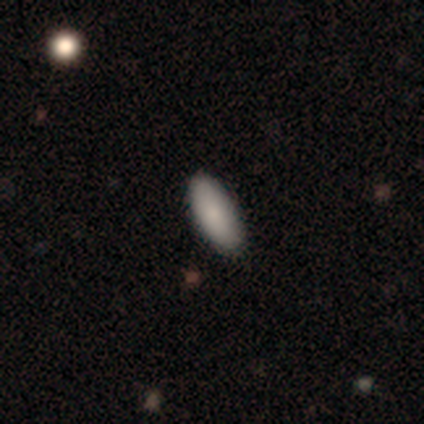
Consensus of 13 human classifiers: Smooth or featured: smooth — 92% (featured or disk — 8%)
How rounded: in between — 83% (cigar-shaped — 17%)
Merging: none — 100%